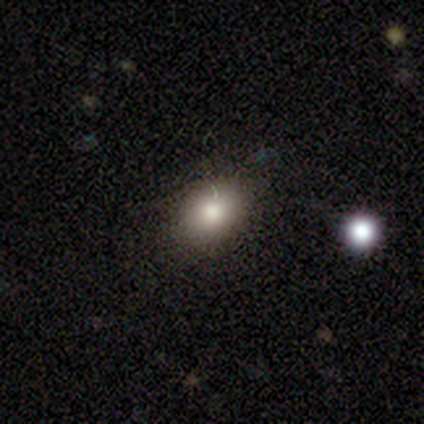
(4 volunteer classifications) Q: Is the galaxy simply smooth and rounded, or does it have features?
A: smooth — 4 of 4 (100%).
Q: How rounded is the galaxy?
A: in between — 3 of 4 (75%).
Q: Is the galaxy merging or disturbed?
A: none — 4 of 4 (100%).